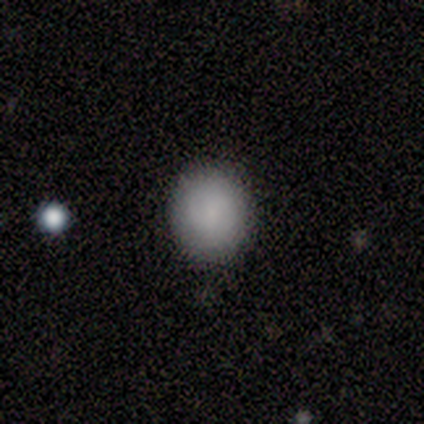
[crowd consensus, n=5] Smooth or featured: smooth — 80% (featured or disk — 20%)
How rounded: round — 50% (tied with in between — 50%)
Merging: none — 80% (major disturbance — 20%)